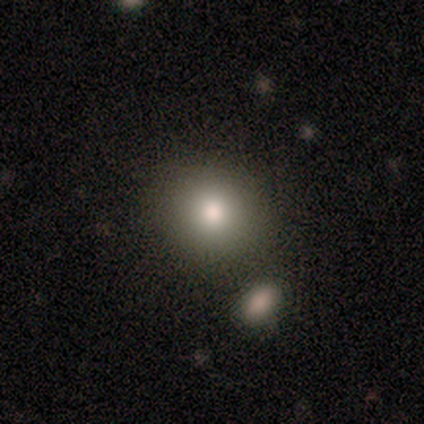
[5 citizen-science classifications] Smooth or featured: smooth — 40% (tied with featured or disk — 40%)
How rounded: round — 100%
Merging: none — 50% (minor disturbance — 25%)